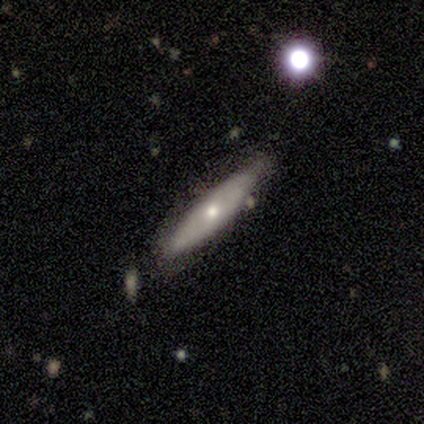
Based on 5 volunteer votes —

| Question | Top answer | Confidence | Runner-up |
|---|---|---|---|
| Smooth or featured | smooth | 60% | featured or disk (40%) |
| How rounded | cigar-shaped | 67% | round (33%) |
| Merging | none | 60% | minor disturbance (20%) |